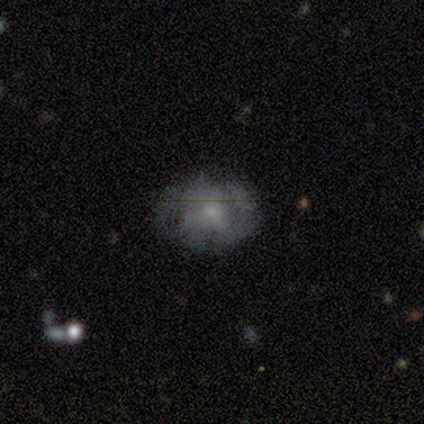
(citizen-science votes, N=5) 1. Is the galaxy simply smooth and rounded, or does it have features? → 80% smooth, 20% featured or disk, 0% star or artifact.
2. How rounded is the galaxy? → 75% round, 25% cigar-shaped, 0% in between.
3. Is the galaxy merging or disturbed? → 60% minor disturbance, 20% none, 20% merger, 0% major disturbance.